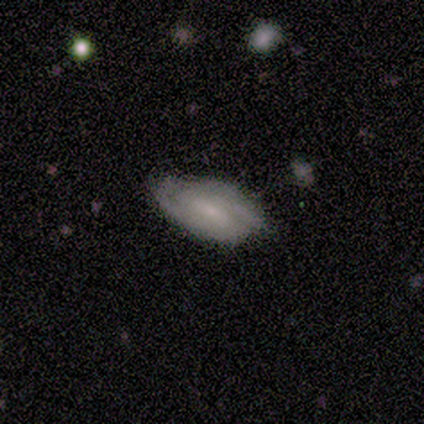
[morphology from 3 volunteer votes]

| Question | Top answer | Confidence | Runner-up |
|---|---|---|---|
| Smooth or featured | smooth | 100% | — |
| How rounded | in between | 100% | — |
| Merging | minor disturbance | 67% | none (33%) |